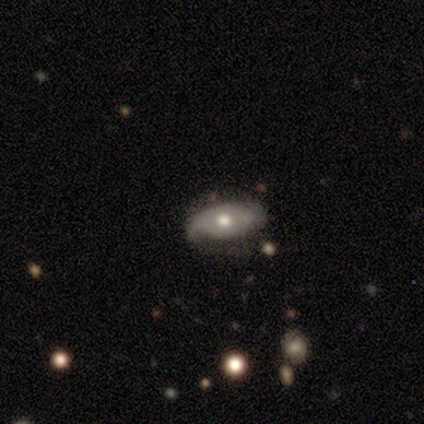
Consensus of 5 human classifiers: A featured or disk galaxy (80%) with no bar (100%), 2 (100%) loose (50%) spiral arms (100%) and a moderate central bulge (100%). Merging: none (60%).